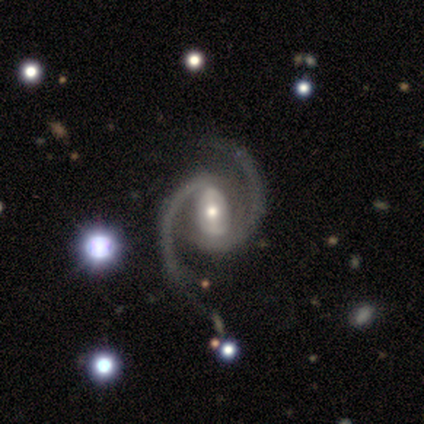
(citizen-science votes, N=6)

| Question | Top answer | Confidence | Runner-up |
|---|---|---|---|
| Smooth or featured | featured or disk | 83% | smooth (17%) |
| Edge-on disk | no | 100% | — |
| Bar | strong | 80% | weak (20%) |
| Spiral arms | yes | 100% | — |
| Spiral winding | loose | 60% | medium (40%) |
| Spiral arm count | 2 | 100% | — |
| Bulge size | moderate | 60% | large (20%) |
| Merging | none | 50% | minor disturbance (17%) |